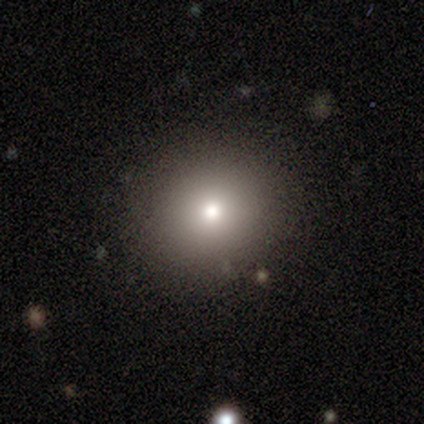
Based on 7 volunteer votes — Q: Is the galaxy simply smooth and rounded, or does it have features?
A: smooth — 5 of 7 (71%).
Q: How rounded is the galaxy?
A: round — 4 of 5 (80%).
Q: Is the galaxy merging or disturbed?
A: none — 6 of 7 (86%).